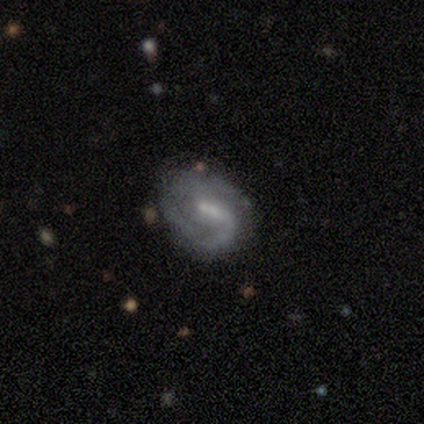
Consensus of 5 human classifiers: Smooth or featured?
  - featured or disk: 80% *
  - smooth: 20%
  - star or artifact: 0%
Edge-on disk?
  - no: 100% *
  - yes: 0%
Bar?
  - strong: 50% *
  - weak: 25%
  - no: 25%
Spiral arms?
  - yes: 100% *
  - no: 0%
Spiral winding?
  - tight: 75% *
  - medium: 25%
  - loose: 0%
Spiral arm count?
  - 1: 50% *
  - 2: 25%
  - can't tell: 25%
  - 3: 0%
  - 4: 0%
  - more than 4: 0%
Bulge size?
  - moderate: 50% *
  - large: 25%
  - small: 25%
  - dominant: 0%
  - none: 0%
Merging?
  - minor disturbance: 60% *
  - none: 40%
  - major disturbance: 0%
  - merger: 0%